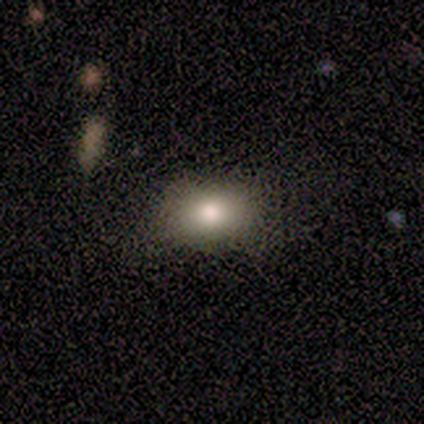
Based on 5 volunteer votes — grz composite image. It shows a smooth galaxy with no disk features (80%) that is in between round and cigar-shaped (75%). Merging: none (100%).